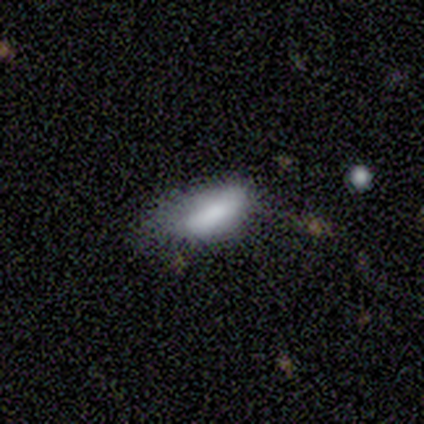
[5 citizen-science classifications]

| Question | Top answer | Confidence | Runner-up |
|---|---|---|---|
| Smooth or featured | smooth | 100% | — |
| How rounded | in between | 100% | — |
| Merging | minor disturbance | 60% | none (20%) |